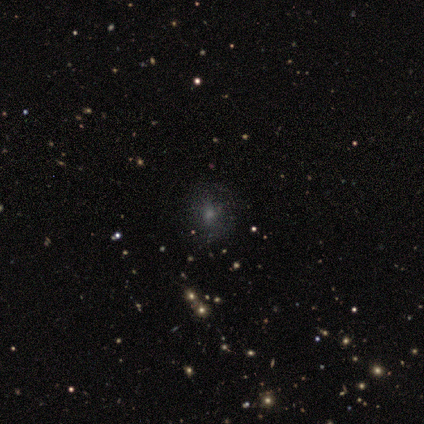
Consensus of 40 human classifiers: Smooth or featured? 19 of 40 (48%) said smooth. How rounded? 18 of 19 (95%) said round. Merging? 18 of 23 (78%) said none.